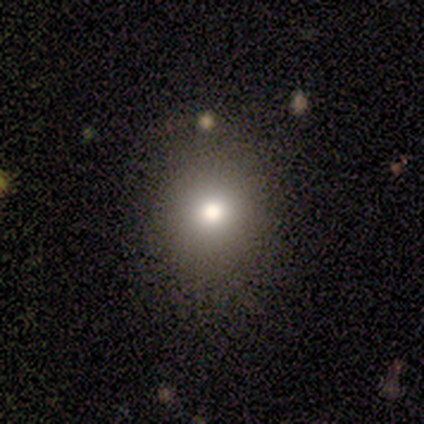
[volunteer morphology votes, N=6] type=smooth (67%); roundness=round (50%, tied with in between); merging=none (100%).